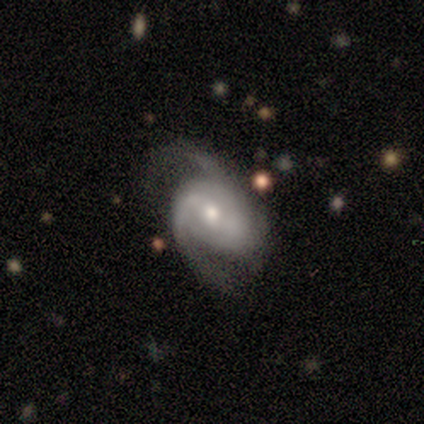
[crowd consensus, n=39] Smooth or featured? featured or disk (95%)
Edge-on disk? no (97%)
Bar? weak (44%)
Spiral arms? yes (100%)
Spiral winding? medium (56%)
Spiral arm count? 2 (69%)
Bulge size? moderate (67%)
Merging? none (49%)